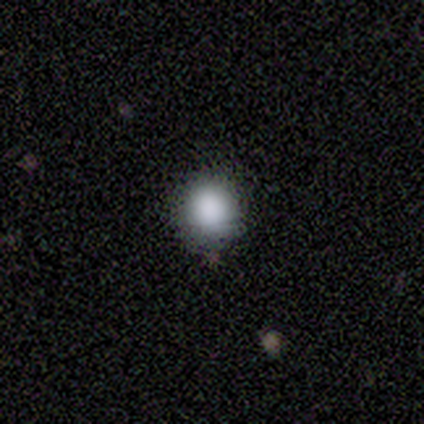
Smooth or featured? smooth (80%)
How rounded? round (100%)
Merging? none (75%)